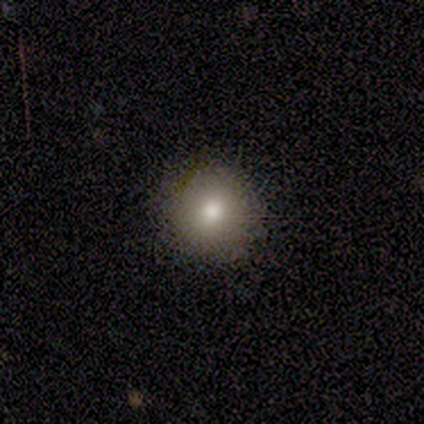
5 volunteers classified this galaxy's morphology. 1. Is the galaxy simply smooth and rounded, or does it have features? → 80% smooth, 20% featured or disk, 0% star or artifact.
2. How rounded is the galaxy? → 100% round, 0% in between, 0% cigar-shaped.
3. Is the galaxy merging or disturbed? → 80% none, 20% minor disturbance, 0% major disturbance, 0% merger.